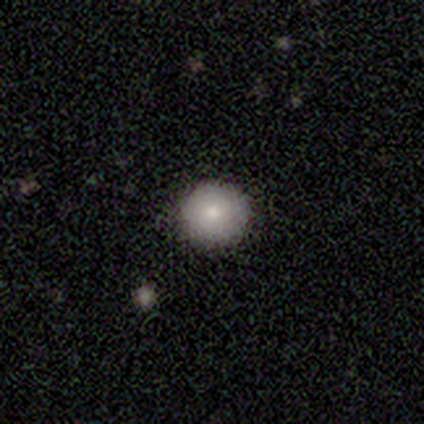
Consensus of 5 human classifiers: Morphology: type=smooth (80%); roundness=round (100%); merging=none (100%).